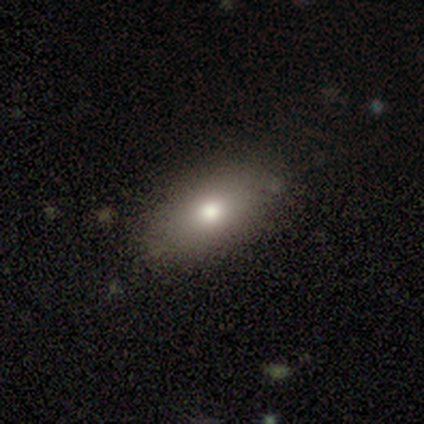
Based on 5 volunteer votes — Overall: smooth (60%; featured or disk 20%). How rounded: in between (67%; cigar-shaped 33%). Merging: none (75%).